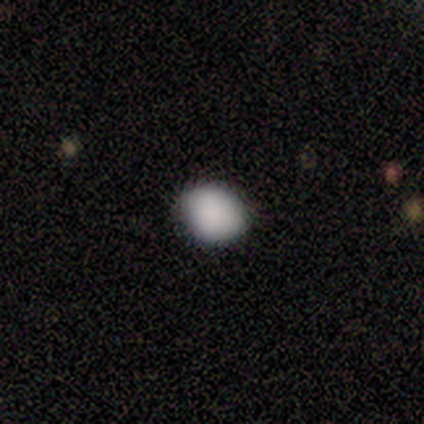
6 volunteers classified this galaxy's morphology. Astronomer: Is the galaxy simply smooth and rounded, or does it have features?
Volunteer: smooth — 100%.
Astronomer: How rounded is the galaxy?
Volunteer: round — 100%.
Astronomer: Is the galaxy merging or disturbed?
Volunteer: none — 100%.